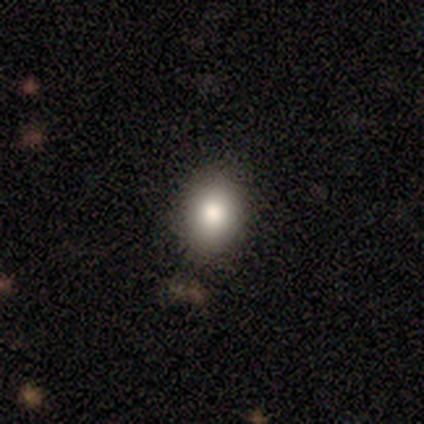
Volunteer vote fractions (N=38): Overall: smooth (76%). How rounded: round (62%; in between 38%). Merging: none (82%).